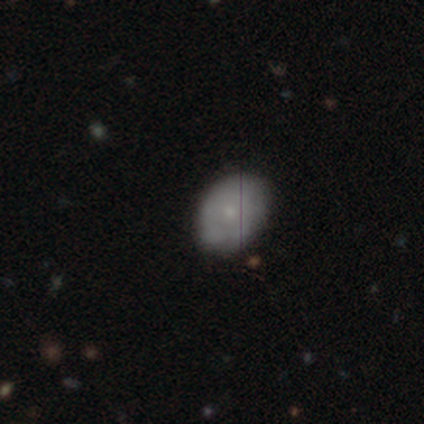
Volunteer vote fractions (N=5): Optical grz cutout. It shows a smooth galaxy with no disk features (60%) that is in between round and cigar-shaped (67%). Merging: none (60%).